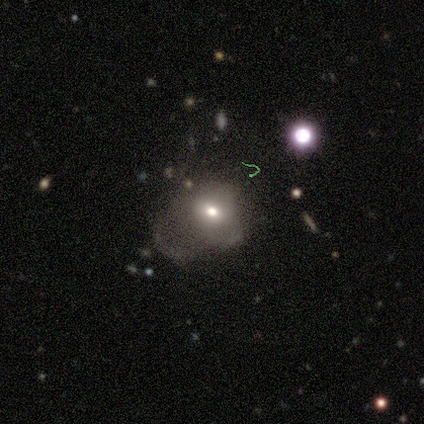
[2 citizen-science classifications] Overall: smooth (50%, tied with featured or disk). How rounded: round (100%). Merging: none (50%, tied with minor disturbance).